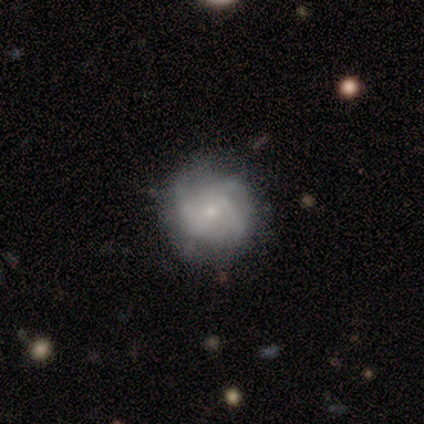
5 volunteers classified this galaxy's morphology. Smooth or featured?
  - featured or disk: 80% *
  - star or artifact: 20%
  - smooth: 0%
Edge-on disk?
  - no: 100% *
  - yes: 0%
Bar?
  - no: 100% *
  - strong: 0%
  - weak: 0%
Spiral arms?
  - yes: 75% *
  - no: 25%
Spiral winding?
  - tight: 67% *
  - medium: 33%
  - loose: 0%
Spiral arm count?
  - 2: 33% * (tied)
  - 4: 33% * (tied)
  - can't tell: 33% * (tied)
  - 1: 0%
  - 3: 0%
  - more than 4: 0%
Bulge size?
  - small: 100% *
  - dominant: 0%
  - large: 0%
  - moderate: 0%
  - none: 0%
Merging?
  - none: 50% * (tied)
  - minor disturbance: 50% * (tied)
  - major disturbance: 0%
  - merger: 0%